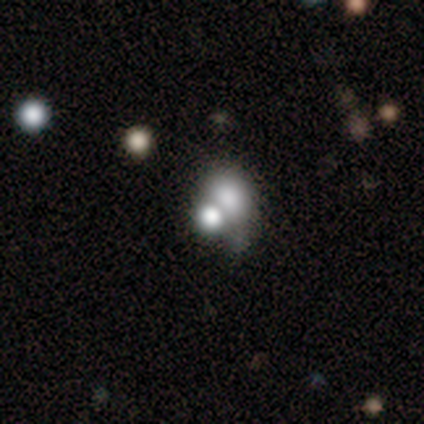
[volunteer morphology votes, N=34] Q: Smooth or featured?
A: smooth (76%); runner-up: featured or disk (18%)
Q: How rounded?
A: round (50%); tied with: in between (50%)
Q: Merging?
A: merger (59%)